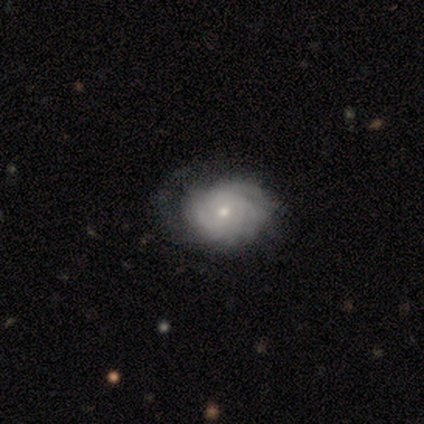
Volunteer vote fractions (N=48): A featured or disk galaxy (73%) with no bar (88%), tight (79%) spiral arms (97%) and a small central bulge (56%).

Vote fractions:
- Smooth or featured? featured or disk: 73% / smooth: 19% / star or artifact: 8%
- Edge-on disk? no: 97% / yes: 3%
- Bar? no: 88% / weak: 9% / strong: 3%
- Spiral arms? yes: 97% / no: 3%
- Spiral winding? tight: 79% / medium: 18% / loose: 3%
- Spiral arm count? can't tell: 36% / more than 4: 30% / 4: 12% / 2: 9% / 3: 9% / 1: 3%
- Bulge size? small: 56% / moderate: 41% / none: 3% / dominant: 0% / large: 0%
- Merging? none: 70% / major disturbance: 16% / minor disturbance: 11% / merger: 2%